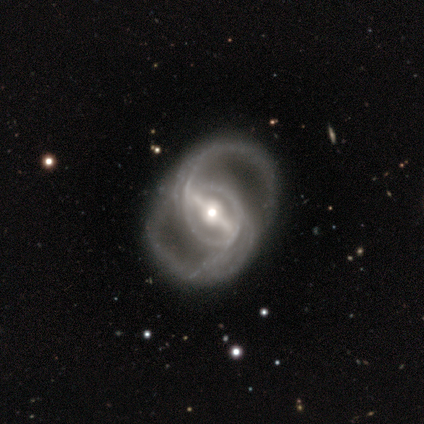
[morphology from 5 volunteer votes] Overall: featured or disk (100%). Edge-on disk: no (100%). Bar: strong (100%). Spiral arms: yes (100%). Spiral arm count: 2 (80%). Spiral winding: tight (60%; medium 40%). Bulge size: small (60%; moderate 40%). Merging: none (60%; minor disturbance 20%).